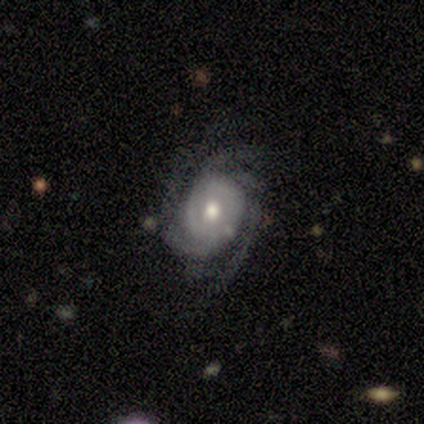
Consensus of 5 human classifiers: Smooth or featured? 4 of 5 (80%) said featured or disk. Edge-on disk? 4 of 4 (100%) said no. Bar? 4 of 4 (100%) said no. Spiral arms? 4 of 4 (100%) said yes. Spiral winding? 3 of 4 (75%) said tight. Spiral arm count? 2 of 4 (50%) said 3. Bulge size? 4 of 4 (100%) said moderate. Merging? 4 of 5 (80%) said none.